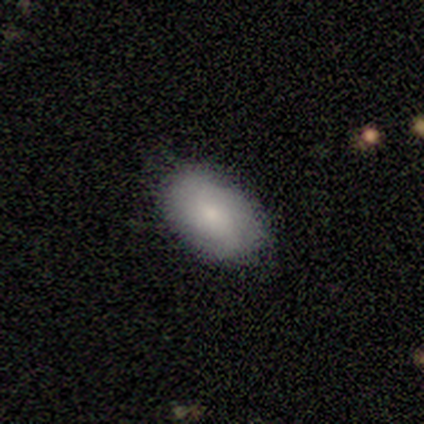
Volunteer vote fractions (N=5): Volunteers were most divided on "merging": none: 80%, minor disturbance: 20%, major disturbance: 0%, merger: 0%. More confident: smooth or featured — smooth (100%); how rounded — in between (100%).